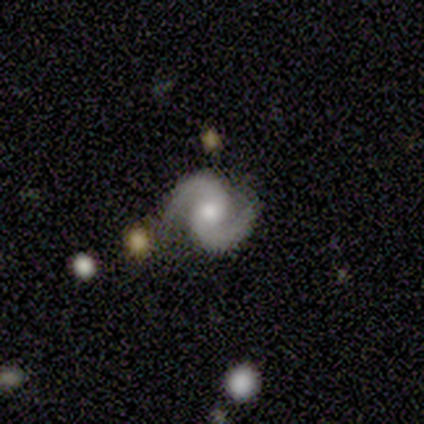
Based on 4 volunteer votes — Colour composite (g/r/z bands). It shows a featured or disk galaxy (100%) with no bar (100%), 2 (100%) medium (75%) spiral arms (100%) and a moderate central bulge (50%, tied with small). Merging: none (75%).